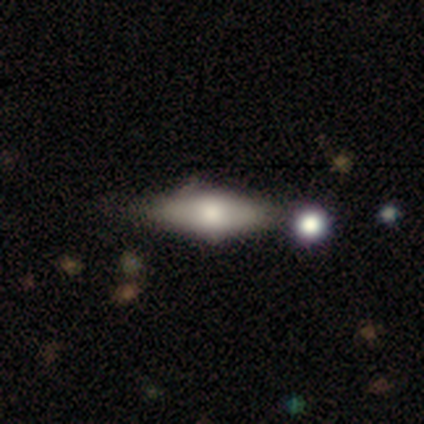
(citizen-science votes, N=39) Q: Smooth or featured?
A: smooth (51%); runner-up: featured or disk (38%)
Q: How rounded?
A: in between (75%); runner-up: cigar-shaped (25%)
Q: Merging?
A: none (54%); runner-up: minor disturbance (14%)